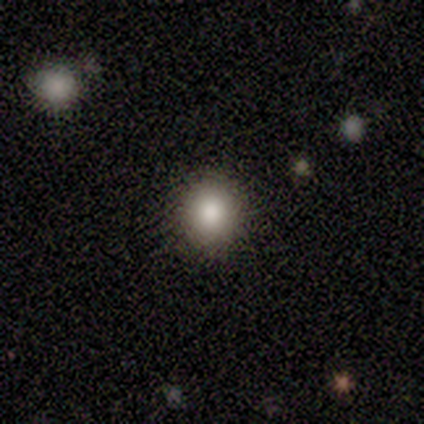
Smooth or featured?
  - smooth: 100% *
  - featured or disk: 0%
  - star or artifact: 0%
How rounded?
  - round: 80% *
  - in between: 20%
  - cigar-shaped: 0%
Merging?
  - none: 100% *
  - minor disturbance: 0%
  - major disturbance: 0%
  - merger: 0%